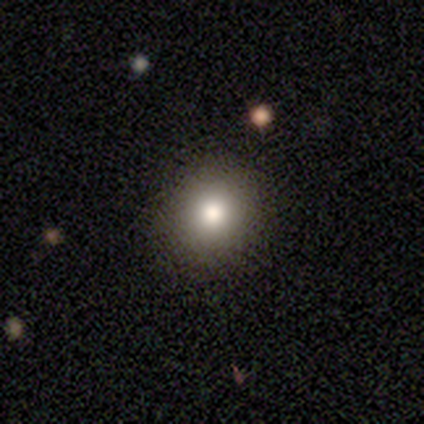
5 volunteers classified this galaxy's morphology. Q: Smooth or featured?
A: smooth (80%); runner-up: featured or disk (20%)
Q: How rounded?
A: round (75%); runner-up: in between (25%)
Q: Merging?
A: none (80%); runner-up: minor disturbance (20%)